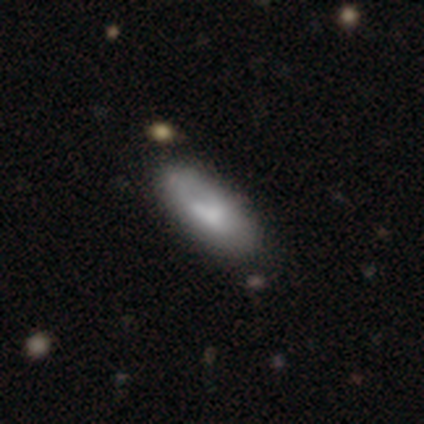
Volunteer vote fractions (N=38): Smooth or featured: smooth — 76% (featured or disk — 21%)
How rounded: in between — 83% (cigar-shaped — 17%)
Merging: none — 73% (minor disturbance — 16%)